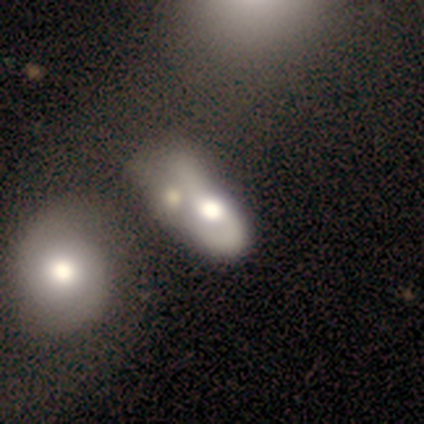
This is likely a featured or disk galaxy (70%). It is clearly not viewed edge-on (88%). Bar: clearly no (100%). Spiral arm pattern: possibly no (57%). Central bulge: marginally large (43%). Merging: marginally merger (44%).